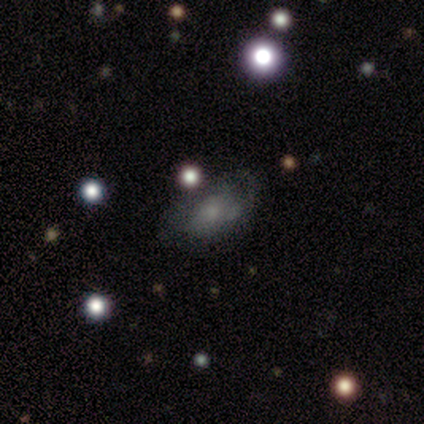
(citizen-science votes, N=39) featured or disk 44%, smooth 41%, star or artifact 15%. Down the decision tree: edge-on disk — no (94%); bar — no (81%); spiral arms — no (56%); bulge size — small (56%); merging — none (52%).